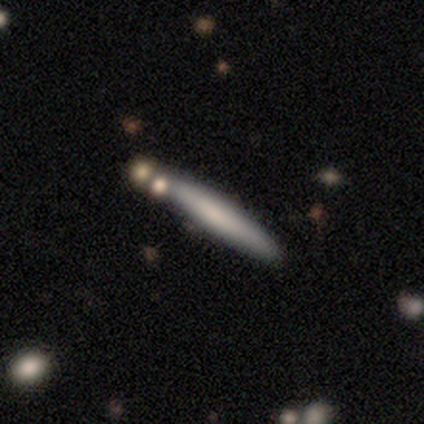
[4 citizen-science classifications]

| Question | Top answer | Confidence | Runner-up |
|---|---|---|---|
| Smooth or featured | smooth | 100% | — |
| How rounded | cigar-shaped | 100% | — |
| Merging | none | 50% | tied: merger (50%) |